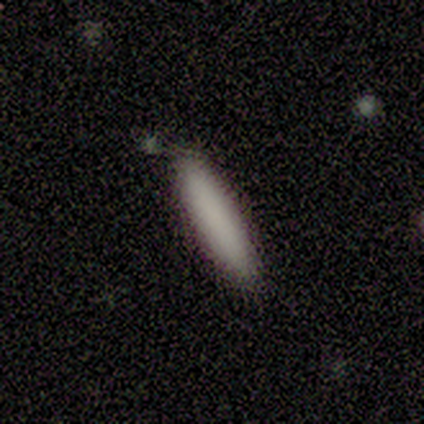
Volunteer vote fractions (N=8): This appears to be a smooth galaxy with no disk features (100%) that is cigar-shaped (62%). Merging: none (88%).